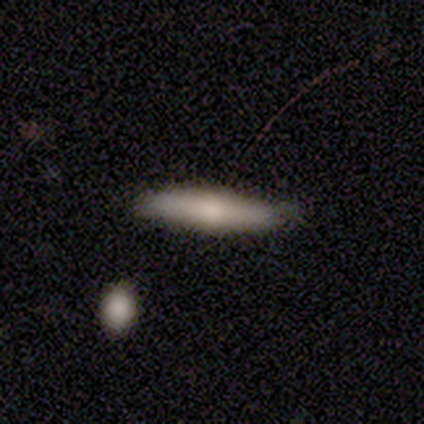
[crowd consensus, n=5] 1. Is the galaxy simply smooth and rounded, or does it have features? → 60% featured or disk, 40% smooth, 0% star or artifact.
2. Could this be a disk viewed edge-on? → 67% yes, 33% no.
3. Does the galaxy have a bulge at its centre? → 100% rounded, 0% boxy, 0% none.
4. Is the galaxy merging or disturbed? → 40% none (tied), 40% minor disturbance (tied), 20% merger, 0% major disturbance.